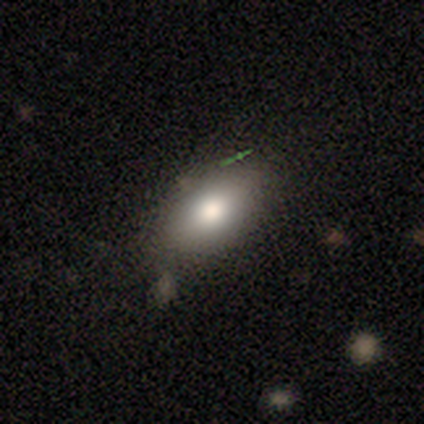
Smooth or featured? smooth (69%)
How rounded? in between (93%)
Merging? none (68%)